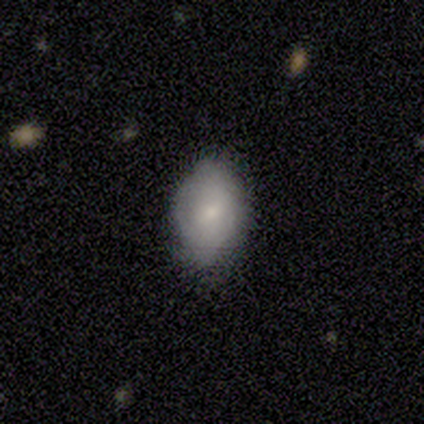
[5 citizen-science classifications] Smooth or featured?
  - smooth: 60% *
  - featured or disk: 40%
  - star or artifact: 0%
How rounded?
  - in between: 100% *
  - round: 0%
  - cigar-shaped: 0%
Merging?
  - none: 60% *
  - minor disturbance: 40%
  - major disturbance: 0%
  - merger: 0%